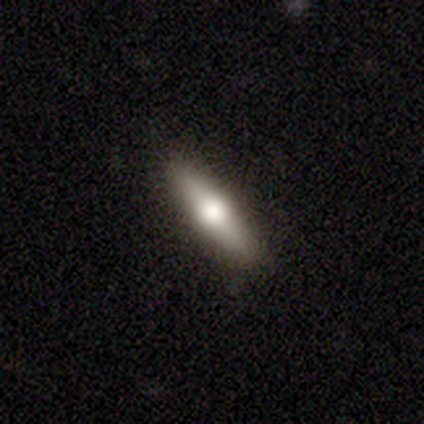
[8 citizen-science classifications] Q: Smooth or featured?
A: smooth (62%); runner-up: featured or disk (38%)
Q: How rounded?
A: in between (60%); runner-up: cigar-shaped (40%)
Q: Merging?
A: none (88%); runner-up: minor disturbance (12%)